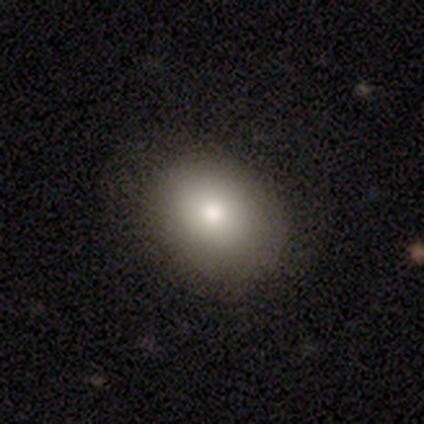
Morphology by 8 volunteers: smooth 100%, featured or disk 0%, star or artifact 0%. Down the decision tree: how rounded — in between (75%); merging — none (88%).